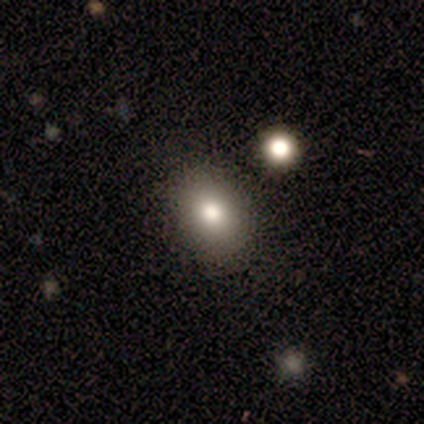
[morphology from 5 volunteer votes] smooth-or-featured: smooth: 100% | featured or disk: 0% | star or artifact: 0%
  how-rounded: in between: 100% | round: 0% | cigar-shaped: 0%
  merging: none: 80% | merger: 20% | minor disturbance: 0% | major disturbance: 0%